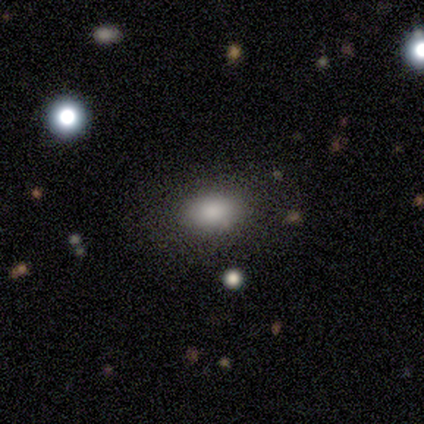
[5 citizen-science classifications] Smooth or featured?
  - smooth: 80% *
  - featured or disk: 20%
  - star or artifact: 0%
How rounded?
  - in between: 100% *
  - round: 0%
  - cigar-shaped: 0%
Merging?
  - none: 100% *
  - minor disturbance: 0%
  - major disturbance: 0%
  - merger: 0%